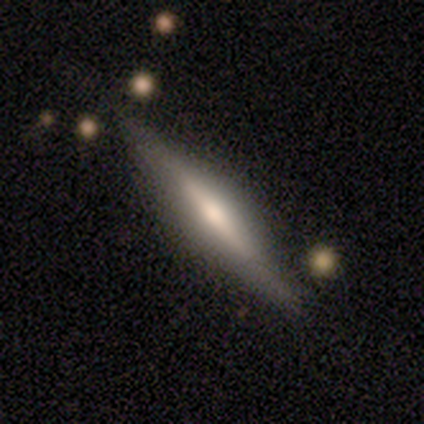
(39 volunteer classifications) Smooth or featured: featured or disk — 56% (smooth — 44%)
Edge-on disk: yes — 95% (no — 5%)
Edge-on bulge: rounded — 81% (boxy — 14%)
Merging: none — 82% (minor disturbance — 10%)